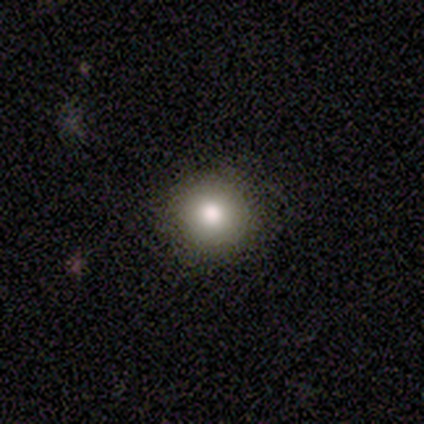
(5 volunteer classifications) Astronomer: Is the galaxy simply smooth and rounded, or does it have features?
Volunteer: smooth — 80%.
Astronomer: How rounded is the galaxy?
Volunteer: round — 100%.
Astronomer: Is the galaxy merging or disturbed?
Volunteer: none — 80%.